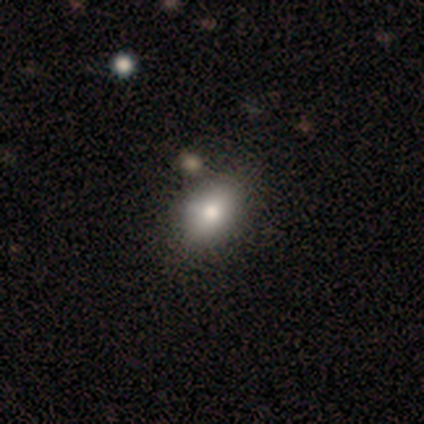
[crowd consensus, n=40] Smooth or featured? smooth (90%)
How rounded? in between (81%)
Merging? none (54%)